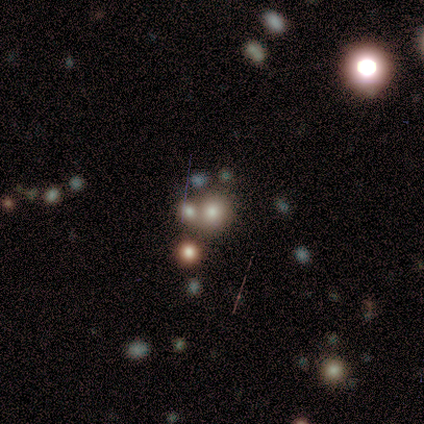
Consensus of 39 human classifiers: smooth 41% (tied), star or artifact 41% (tied), featured or disk 18%. Down the decision tree: how rounded — round (81%); merging — none (52%).